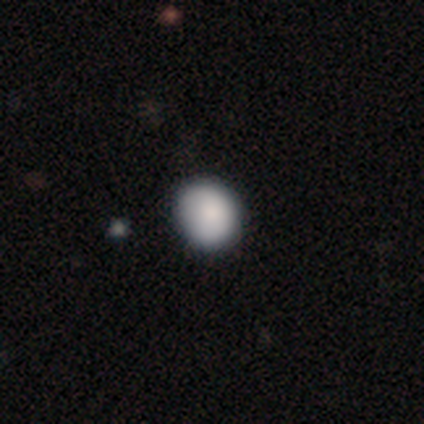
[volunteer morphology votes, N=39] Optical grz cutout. It shows a smooth galaxy with no disk features (82%) that is round (69%). Merging: none (49%).